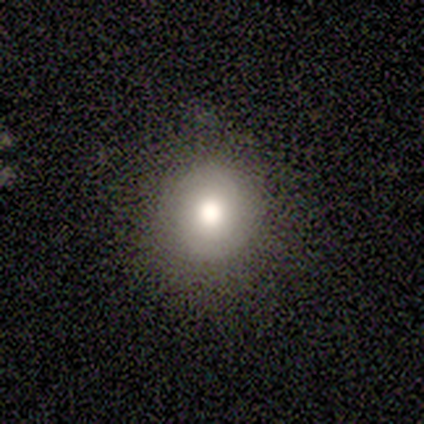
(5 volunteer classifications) smooth_or_featured: smooth (p=1.00)
how_rounded: round (p=1.00)
merging: none (p=1.00)